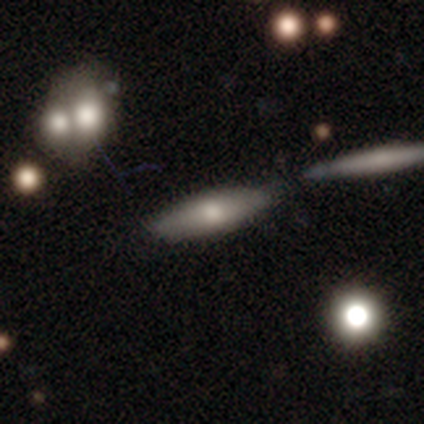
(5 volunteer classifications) Smooth or featured: smooth — 80% (featured or disk — 20%)
How rounded: cigar-shaped — 75% (in between — 25%)
Merging: none — 60% (merger — 40%)